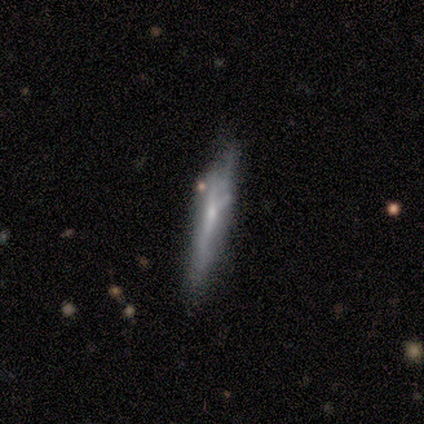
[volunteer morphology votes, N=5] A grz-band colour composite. It shows a featured or disk galaxy (60%) viewed edge-on (100%) with no central bulge (67%). Merging: none (80%).